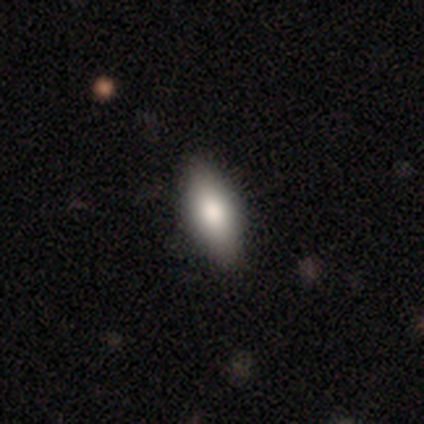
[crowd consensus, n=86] smooth_or_featured: smooth (p=0.78) [alt: featured or disk p=0.17]
how_rounded: in between (p=0.81) [alt: cigar-shaped p=0.19]
merging: none (p=0.85) [alt: minor disturbance p=0.15]